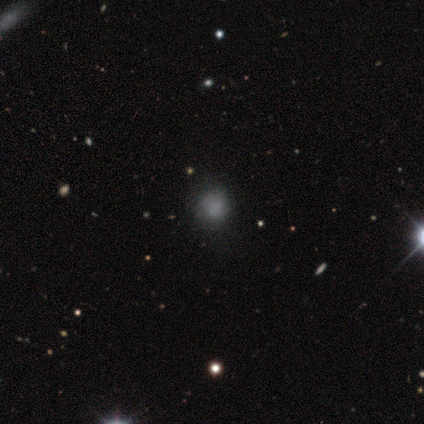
Overall: smooth (100%). How rounded: round (100%). Merging: none (60%; minor disturbance 20%).